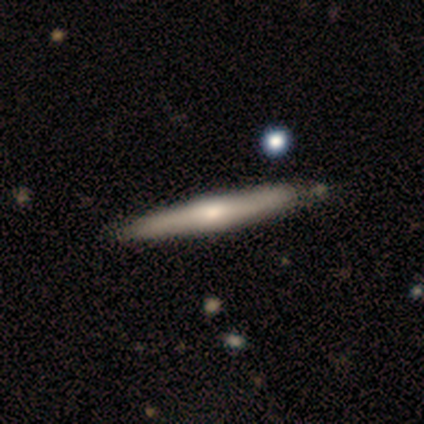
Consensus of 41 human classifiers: Smooth or featured? featured or disk (78%)
Edge-on disk? yes (91%)
Edge-on bulge? rounded (72%)
Merging? none (70%)